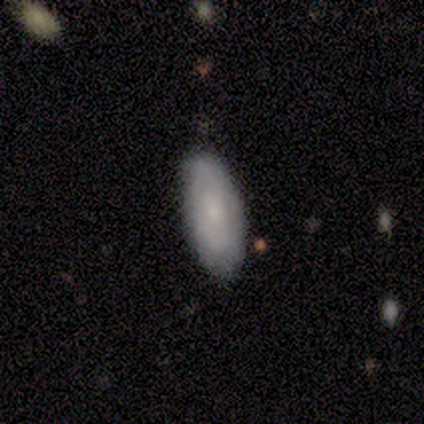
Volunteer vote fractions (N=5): Smooth or featured? 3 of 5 (60%) said featured or disk. Edge-on disk? 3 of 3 (100%) said no. Bar? 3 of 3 (100%) said no. Spiral arms? 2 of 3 (67%) said yes. Spiral winding? 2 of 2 (100%) said tight. Spiral arm count? 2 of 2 (100%) said can't tell. Bulge size? 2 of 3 (67%) said small. Merging? 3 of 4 (75%) said none.